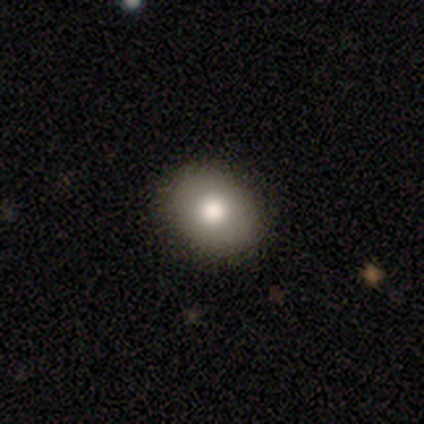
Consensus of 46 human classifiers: This is likely a smooth galaxy (76%). How rounded: possibly round (57%). Merging: clearly none (95%).